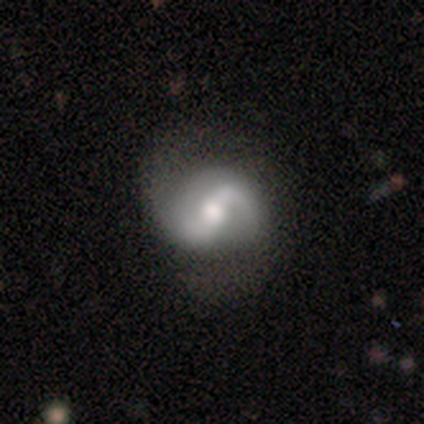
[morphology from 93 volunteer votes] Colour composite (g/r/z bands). It shows a featured or disk galaxy (85%) with a weak bar (50%), 2 (86%) medium (46%) spiral arms (92%) and a moderate central bulge (65%). Merging: none (64%).